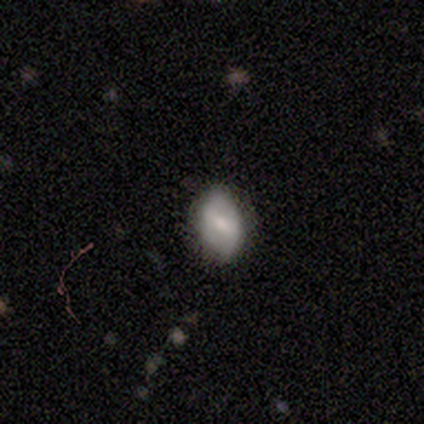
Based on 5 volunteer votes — Smooth or featured?
  - smooth: 60% *
  - featured or disk: 40%
  - star or artifact: 0%
How rounded?
  - in between: 100% *
  - round: 0%
  - cigar-shaped: 0%
Merging?
  - minor disturbance: 60% *
  - none: 40%
  - major disturbance: 0%
  - merger: 0%